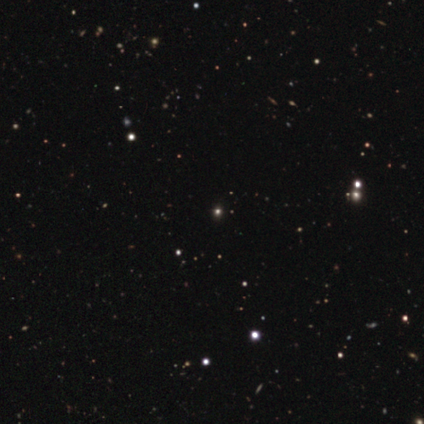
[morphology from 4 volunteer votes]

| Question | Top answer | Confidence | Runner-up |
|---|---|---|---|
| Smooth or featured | star or artifact | 75% | smooth (25%) |